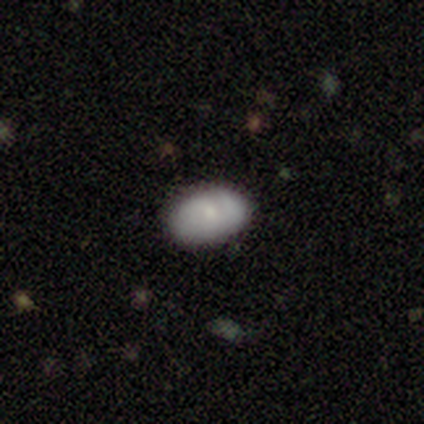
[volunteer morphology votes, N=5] smooth-or-featured: smooth: 60% | featured or disk: 20% | star or artifact: 20%
  how-rounded: in between: 67% | round: 33% | cigar-shaped: 0%
  merging: none: 75% | minor disturbance: 25% | major disturbance: 0% | merger: 0%